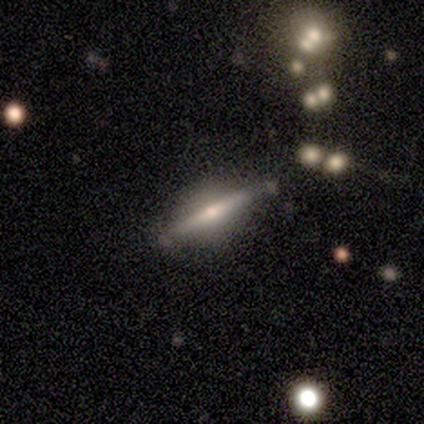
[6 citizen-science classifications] This appears to be a featured or disk galaxy (67%) viewed edge-on (100%) with no central bulge (50%, tied with rounded). Merging: none (100%).